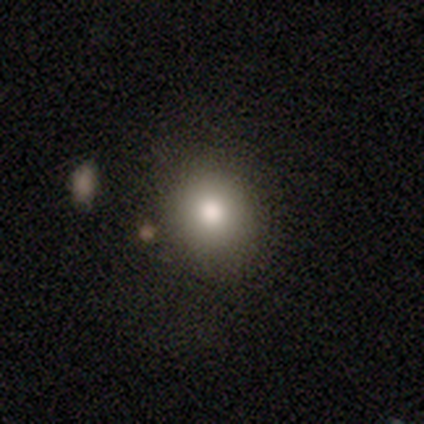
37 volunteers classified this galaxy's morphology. Smooth or featured: smooth — 70% (featured or disk — 16%)
How rounded: round — 69% (in between — 31%)
Merging: none — 81% (minor disturbance — 16%)